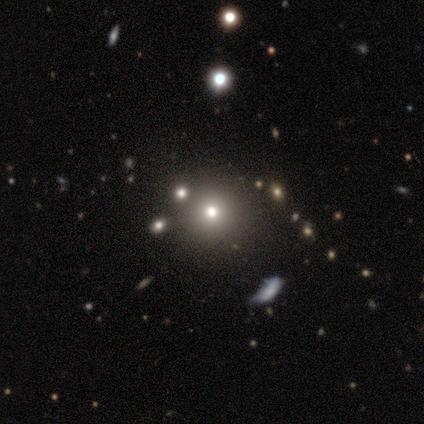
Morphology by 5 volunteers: type=smooth (80%); roundness=round (75%); merging=none (100%).